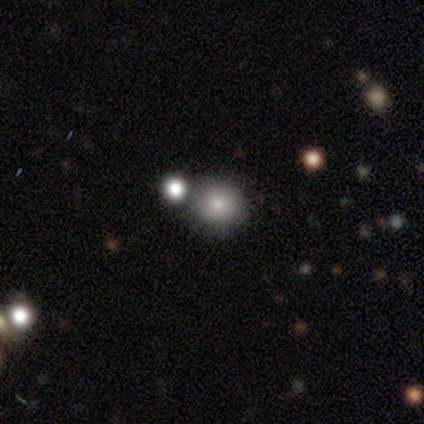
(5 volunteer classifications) Volunteers were most divided on "smooth or featured": smooth: 80%, featured or disk: 20%, star or artifact: 0%. More confident: how rounded — round (100%); merging — none (80%).